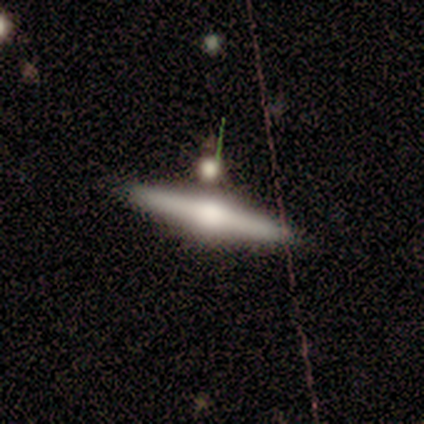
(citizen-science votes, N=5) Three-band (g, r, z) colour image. It shows a featured or disk galaxy (100%) viewed edge-on (100%) with a rounded central bulge (100%). Merging: none (80%).